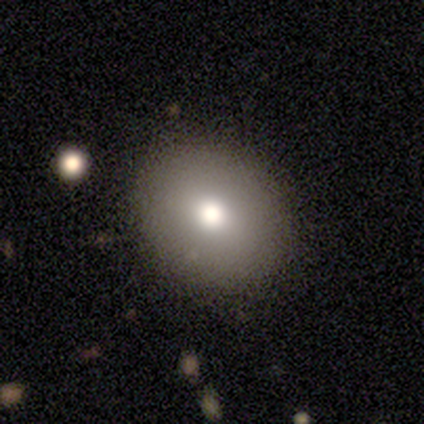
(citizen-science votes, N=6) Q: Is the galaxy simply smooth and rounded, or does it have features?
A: smooth — 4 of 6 (67%).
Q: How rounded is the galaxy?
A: in between — 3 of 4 (75%).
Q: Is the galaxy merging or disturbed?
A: none — 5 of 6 (83%).